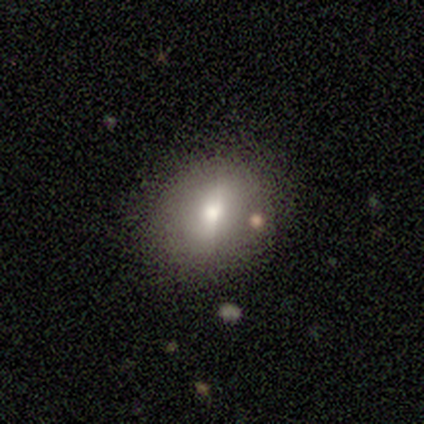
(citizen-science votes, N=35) This appears to be a smooth galaxy with no disk features (66%) that is round (52%). Merging: none (71%).